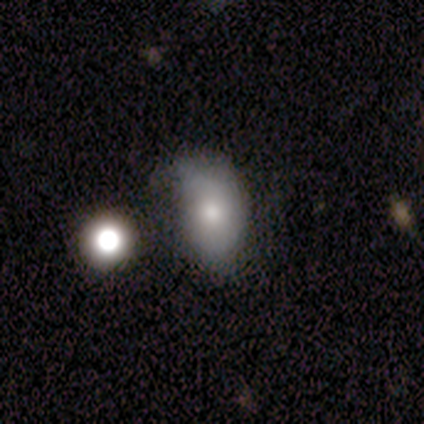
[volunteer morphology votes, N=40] Smooth or featured? smooth (72%)
How rounded? in between (93%)
Merging? minor disturbance (43%)